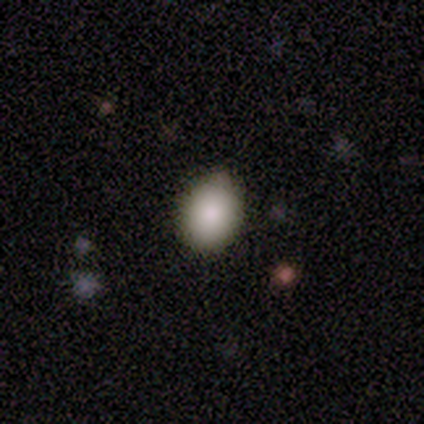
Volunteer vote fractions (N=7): smooth_or_featured: smooth (p=1.00)
how_rounded: in between (p=0.57) [alt: round p=0.43]
merging: none (p=1.00)